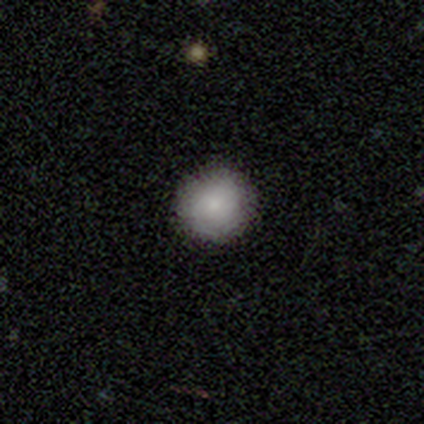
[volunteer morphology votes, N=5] smooth_or_featured: smooth (p=0.80) [alt: featured or disk p=0.20]
how_rounded: round (p=1.00)
merging: none (p=1.00)